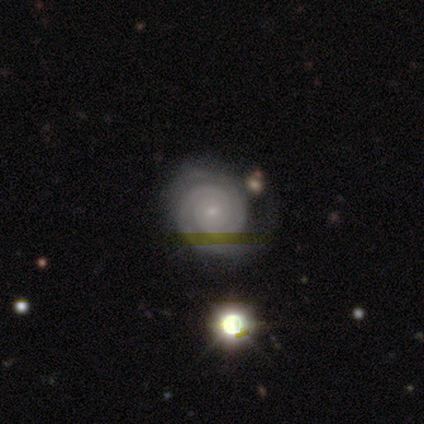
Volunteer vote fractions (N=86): Smooth or featured? featured or disk (83%)
Edge-on disk? no (100%)
Bar? no (66%)
Spiral arms? yes (94%)
Spiral winding? tight (90%)
Spiral arm count? 2 (43%)
Bulge size? small (86%)
Merging? none (64%)